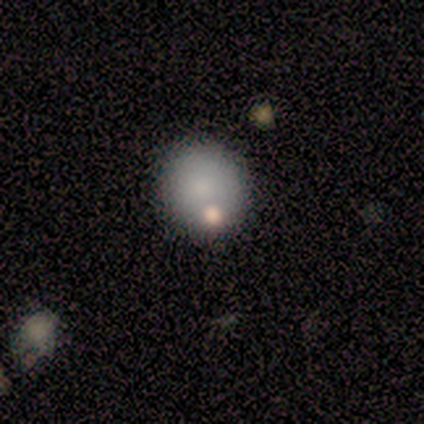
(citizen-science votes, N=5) Volunteers were most divided on "how rounded": round: 75%, in between: 25%, cigar-shaped: 0%. More confident: smooth or featured — smooth (80%); merging — none (75%).